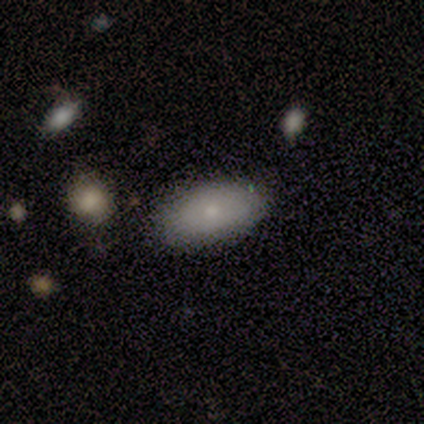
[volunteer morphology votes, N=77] Smooth or featured: smooth — 88% (featured or disk — 6%)
How rounded: in between — 94% (round — 3%)
Merging: none — 60% (minor disturbance — 10%)